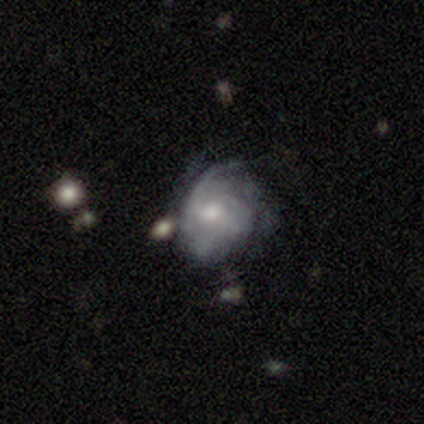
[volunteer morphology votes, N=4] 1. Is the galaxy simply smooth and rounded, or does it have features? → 100% featured or disk, 0% smooth, 0% star or artifact.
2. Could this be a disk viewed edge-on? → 100% no, 0% yes.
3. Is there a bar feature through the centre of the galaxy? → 50% weak, 25% strong, 25% no.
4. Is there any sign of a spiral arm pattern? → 75% yes, 25% no.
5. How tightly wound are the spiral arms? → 67% medium, 33% loose, 0% tight.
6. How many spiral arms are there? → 67% can't tell, 33% 2, 0% 1, 0% 3, 0% 4, 0% more than 4.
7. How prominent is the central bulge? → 75% moderate, 25% small, 0% dominant, 0% large, 0% none.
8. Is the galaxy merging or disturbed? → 75% none, 25% major disturbance, 0% minor disturbance, 0% merger.